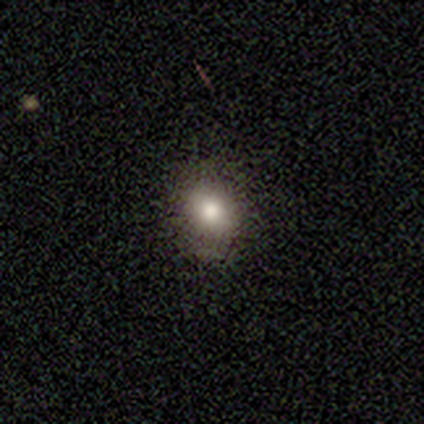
This is likely a smooth galaxy (60%). How rounded: likely in between (67%). Merging: clearly none (100%).